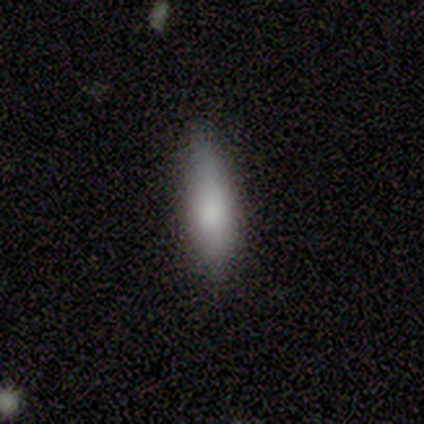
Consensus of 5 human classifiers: Volunteers were most divided on "how rounded" (2-way tie): in between: 50%, cigar-shaped: 50%, round: 0%. More confident: smooth or featured — smooth (80%); merging — none (80%).